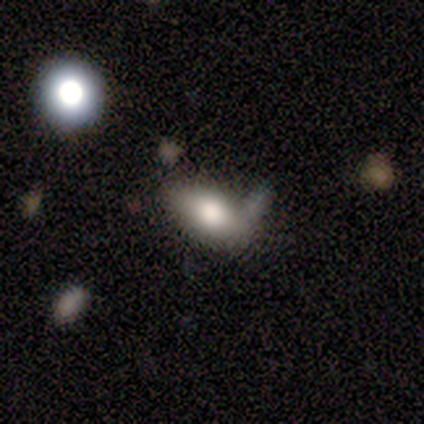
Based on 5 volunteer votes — Smooth or featured? smooth (40%, tied with featured or disk)
How rounded? in between (100%)
Merging? merger (50%)